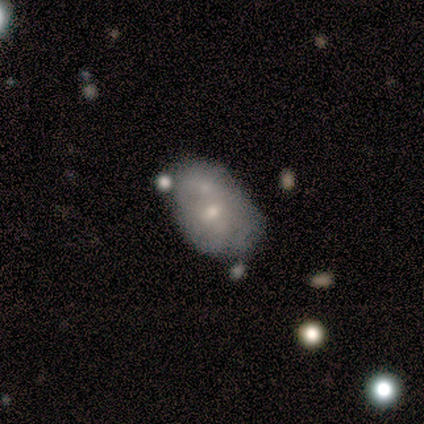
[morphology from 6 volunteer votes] Smooth or featured: featured or disk — 67% (smooth — 33%)
Edge-on disk: no — 100%
Bar: no — 75% (weak — 25%)
Spiral arms: no — 100%
Bulge size: small — 75% (moderate — 25%)
Merging: none — 50% (merger — 33%)